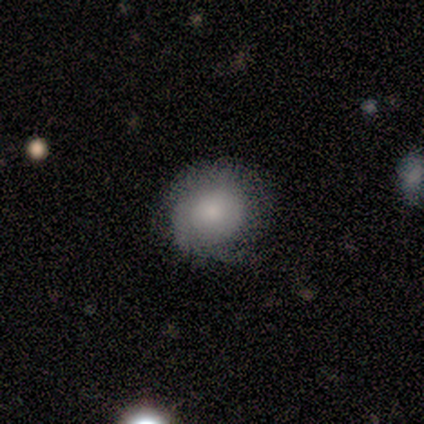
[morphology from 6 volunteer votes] smooth-or-featured: smooth: 50% (tied) | featured or disk: 50% (tied) | star or artifact: 0%
  how-rounded: round: 67% | in between: 33% | cigar-shaped: 0%
  merging: none: 83% | minor disturbance: 17% | major disturbance: 0% | merger: 0%